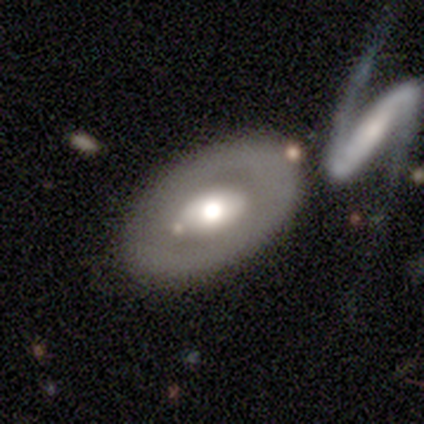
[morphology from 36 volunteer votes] Smooth or featured: featured or disk — 72% (smooth — 22%)
Edge-on disk: no — 88% (yes — 12%)
Bar: no — 83% (strong — 13%)
Spiral arms: no — 87% (yes — 13%)
Bulge size: moderate — 61% (large — 30%)
Merging: none — 71% (merger — 21%)